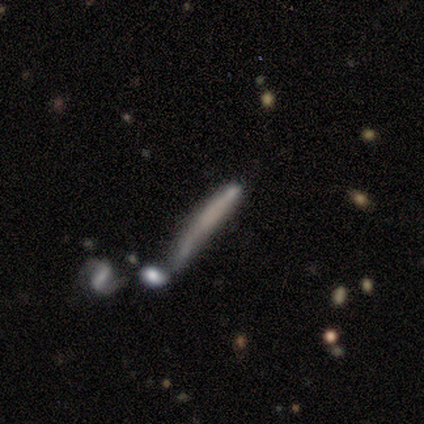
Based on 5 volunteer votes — Smooth or featured? 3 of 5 (60%) said smooth. How rounded? 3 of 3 (100%) said cigar-shaped. Merging? 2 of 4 (50%) said none.